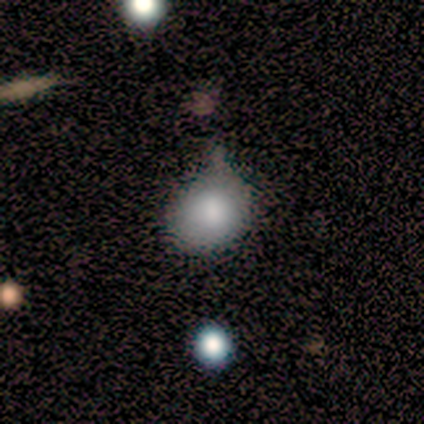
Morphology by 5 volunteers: Q: Smooth or featured?
A: smooth (80%); runner-up: featured or disk (20%)
Q: How rounded?
A: in between (100%)
Q: Merging?
A: none (80%); runner-up: minor disturbance (20%)